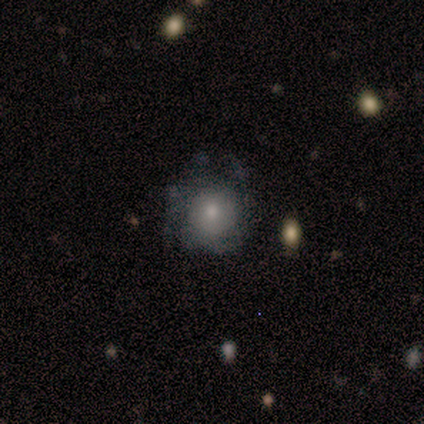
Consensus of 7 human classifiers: Smooth or featured: smooth — 43% (tied with featured or disk — 43%)
How rounded: round — 100%
Merging: none — 33% (tied with minor disturbance — 33%; major disturbance — 33%)